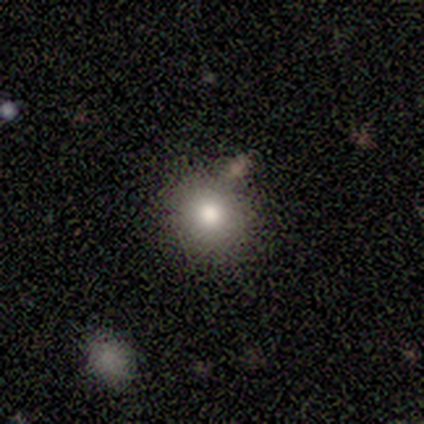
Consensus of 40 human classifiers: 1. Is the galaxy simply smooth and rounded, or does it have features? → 85% smooth, 8% featured or disk, 8% star or artifact.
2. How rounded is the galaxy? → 82% round, 15% in between, 3% cigar-shaped.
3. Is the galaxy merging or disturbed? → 81% none, 8% merger, 5% minor disturbance, 5% major disturbance.